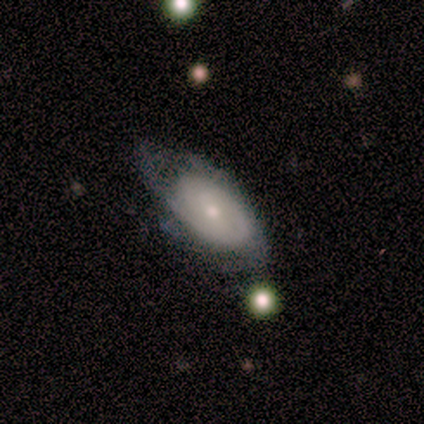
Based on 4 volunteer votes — Morphology: type=featured or disk (100%); edge-on=no (75%); bar=no (67%); spiral arms=no (67%); bulge=moderate (67%); merging=none (50%, tied with minor disturbance).